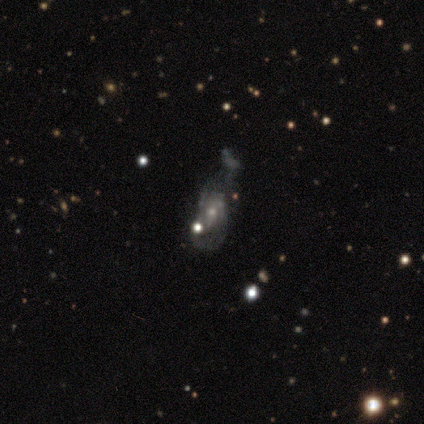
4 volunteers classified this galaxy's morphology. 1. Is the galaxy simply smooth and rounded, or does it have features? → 50% smooth, 25% featured or disk, 25% star or artifact.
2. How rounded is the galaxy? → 100% in between, 0% round, 0% cigar-shaped.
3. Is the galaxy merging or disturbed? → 33% minor disturbance (tied), 33% major disturbance (tied), 33% merger (tied), 0% none.